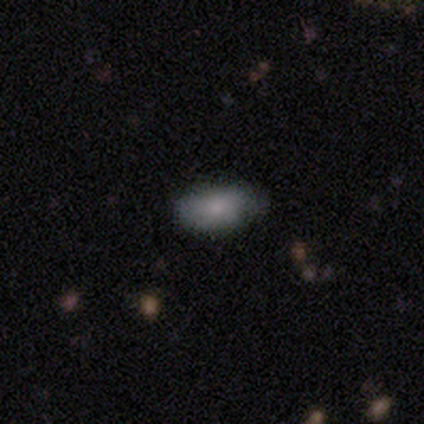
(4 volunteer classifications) Smooth or featured? smooth (75%)
How rounded? in between (100%)
Merging? none (50%, tied with minor disturbance)